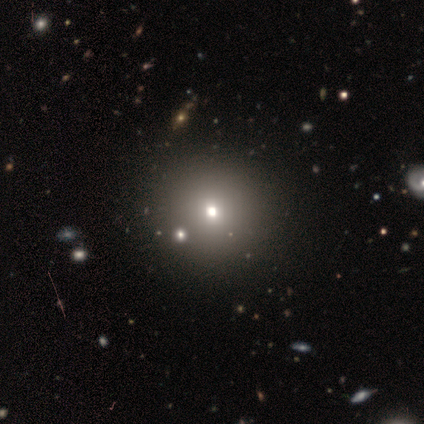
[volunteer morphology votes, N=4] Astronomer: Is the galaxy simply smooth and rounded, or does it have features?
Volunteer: smooth — 50%, tied with star or artifact at 50%.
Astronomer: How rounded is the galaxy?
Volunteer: round — 50%, tied with in between at 50%.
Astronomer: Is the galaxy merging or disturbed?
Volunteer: none — 100%.